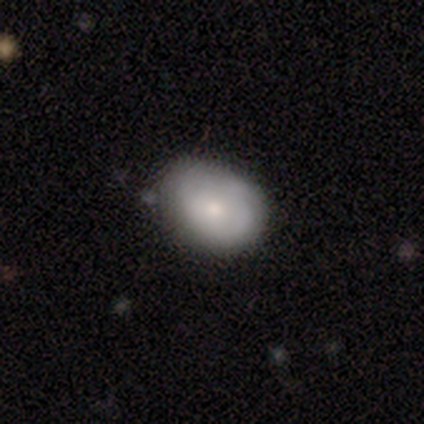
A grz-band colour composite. It shows a smooth galaxy with no disk features (68%) that is in between round and cigar-shaped (63%). Merging: none (54%).